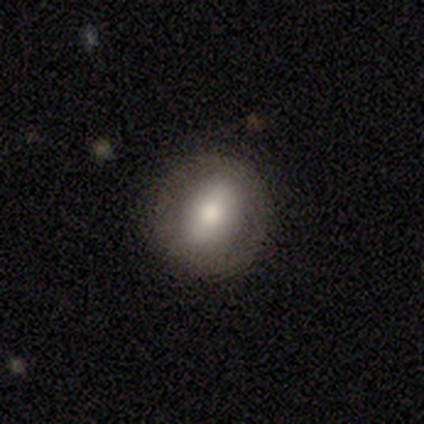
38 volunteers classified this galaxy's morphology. Q: Smooth or featured?
A: smooth (47%); runner-up: featured or disk (45%)
Q: How rounded?
A: round (78%); runner-up: in between (22%)
Q: Merging?
A: none (89%); runner-up: minor disturbance (6%)